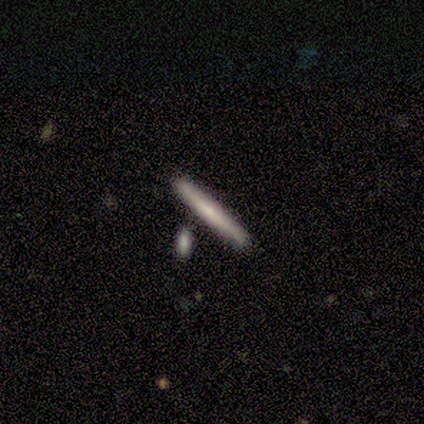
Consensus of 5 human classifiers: smooth-or-featured: smooth: 60% | featured or disk: 40% | star or artifact: 0%
  how-rounded: cigar-shaped: 100% | round: 0% | in between: 0%
  merging: none: 40% (tied) | merger: 40% (tied) | minor disturbance: 20% | major disturbance: 0%